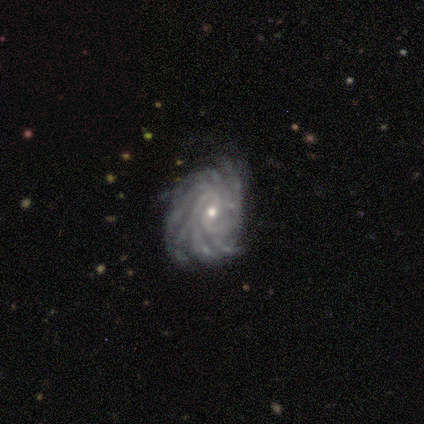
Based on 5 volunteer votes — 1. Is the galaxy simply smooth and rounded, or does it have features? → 100% featured or disk, 0% smooth, 0% star or artifact.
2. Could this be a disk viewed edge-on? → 100% no, 0% yes.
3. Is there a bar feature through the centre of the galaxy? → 60% no, 40% weak, 0% strong.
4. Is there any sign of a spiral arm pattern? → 100% yes, 0% no.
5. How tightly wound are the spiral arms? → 100% tight, 0% medium, 0% loose.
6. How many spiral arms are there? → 60% more than 4, 40% can't tell, 0% 1, 0% 2, 0% 3, 0% 4.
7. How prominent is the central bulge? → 80% small, 20% moderate, 0% dominant, 0% large, 0% none.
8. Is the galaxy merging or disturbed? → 60% minor disturbance, 40% none, 0% major disturbance, 0% merger.